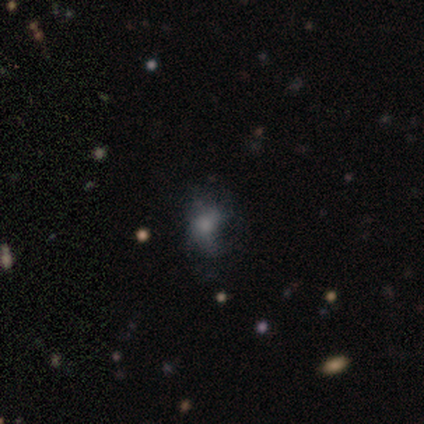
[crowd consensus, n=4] smooth-or-featured: smooth: 75% | featured or disk: 25% | star or artifact: 0%
  how-rounded: in between: 67% | round: 33% | cigar-shaped: 0%
  merging: none: 75% | major disturbance: 25% | minor disturbance: 0% | merger: 0%